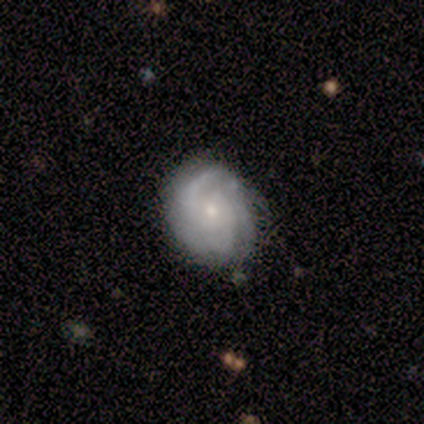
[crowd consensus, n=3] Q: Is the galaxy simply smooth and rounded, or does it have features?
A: featured or disk — 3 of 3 (100%).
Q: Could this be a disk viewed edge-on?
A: no — 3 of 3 (100%).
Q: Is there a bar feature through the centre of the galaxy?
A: weak — 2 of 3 (67%).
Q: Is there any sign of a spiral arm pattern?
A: yes — 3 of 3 (100%).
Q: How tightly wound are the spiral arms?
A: tight — 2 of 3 (67%).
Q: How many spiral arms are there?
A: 2 — 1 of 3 (33%, tied with 3 and can't tell).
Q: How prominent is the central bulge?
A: moderate — 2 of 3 (67%).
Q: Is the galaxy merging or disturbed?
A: none — 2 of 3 (67%).